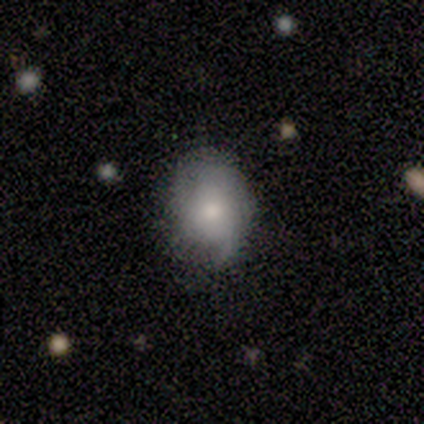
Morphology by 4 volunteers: Smooth or featured?
  - smooth: 50% * (tied)
  - featured or disk: 50% * (tied)
  - star or artifact: 0%
How rounded?
  - in between: 100% *
  - round: 0%
  - cigar-shaped: 0%
Merging?
  - none: 50% * (tied)
  - minor disturbance: 50% * (tied)
  - major disturbance: 0%
  - merger: 0%